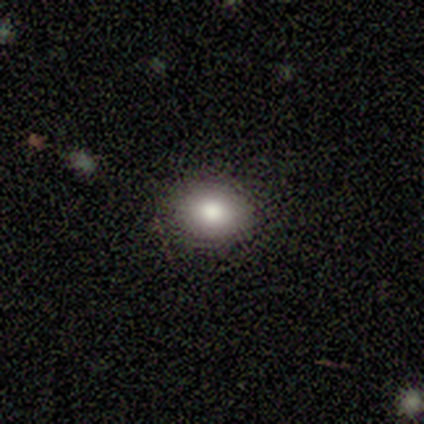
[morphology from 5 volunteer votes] Overall: smooth (60%; star or artifact 40%). How rounded: round (67%; in between 33%). Merging: none (100%).